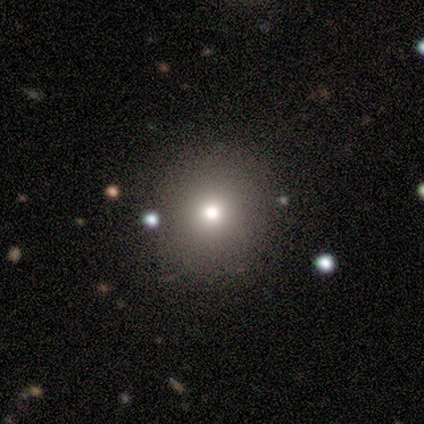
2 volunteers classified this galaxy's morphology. Smooth or featured? smooth (100%)
How rounded? round (100%)
Merging? none (100%)